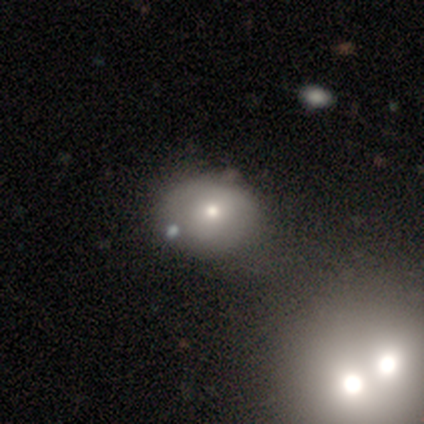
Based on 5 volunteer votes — smooth-or-featured: smooth: 40% (tied) | featured or disk: 40% (tied) | star or artifact: 20%
  how-rounded: in between: 50% (tied) | cigar-shaped: 50% (tied) | round: 0%
  merging: none: 50% | minor disturbance: 25% | merger: 25% | major disturbance: 0%